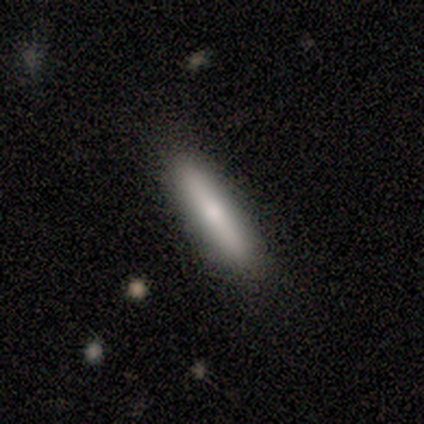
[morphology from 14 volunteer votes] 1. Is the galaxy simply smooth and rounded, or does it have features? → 71% smooth, 29% featured or disk, 0% star or artifact.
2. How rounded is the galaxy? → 100% cigar-shaped, 0% round, 0% in between.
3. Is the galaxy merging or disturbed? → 100% none, 0% minor disturbance, 0% major disturbance, 0% merger.